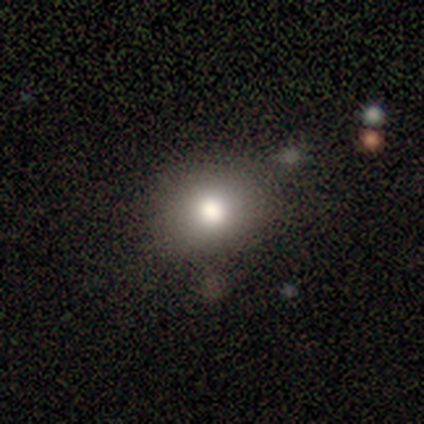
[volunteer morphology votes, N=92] Q: Smooth or featured?
A: smooth (77%); runner-up: star or artifact (13%)
Q: How rounded?
A: round (65%); runner-up: in between (32%)
Q: Merging?
A: none (75%); runner-up: minor disturbance (19%)